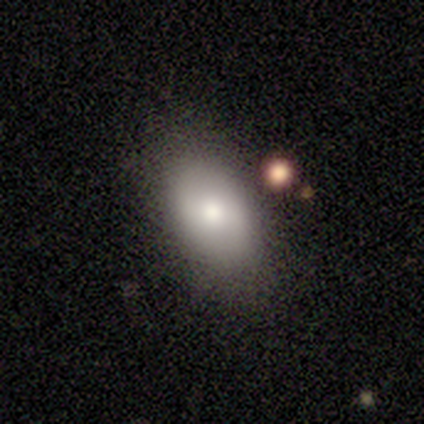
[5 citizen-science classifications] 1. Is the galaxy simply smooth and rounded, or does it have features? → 100% smooth, 0% featured or disk, 0% star or artifact.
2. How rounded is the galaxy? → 80% in between, 20% round, 0% cigar-shaped.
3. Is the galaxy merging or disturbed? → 60% minor disturbance, 40% none, 0% major disturbance, 0% merger.